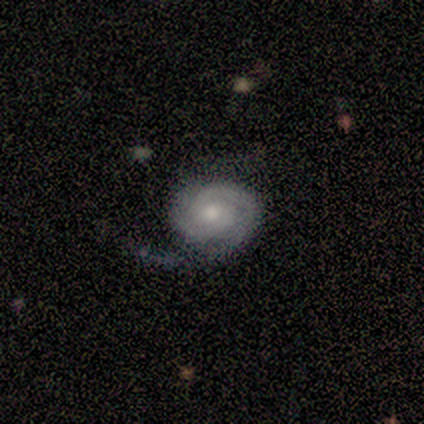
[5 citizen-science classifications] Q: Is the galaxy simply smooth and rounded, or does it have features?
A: featured or disk — 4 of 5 (80%).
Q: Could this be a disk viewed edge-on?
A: no — 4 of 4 (100%).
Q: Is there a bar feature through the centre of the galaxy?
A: no — 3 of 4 (75%).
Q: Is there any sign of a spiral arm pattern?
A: yes — 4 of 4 (100%).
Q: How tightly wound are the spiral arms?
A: tight — 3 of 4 (75%).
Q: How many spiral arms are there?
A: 2 — 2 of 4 (50%).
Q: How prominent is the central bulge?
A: large — 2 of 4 (50%, tied with small).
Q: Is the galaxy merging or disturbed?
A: none — 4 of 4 (100%).